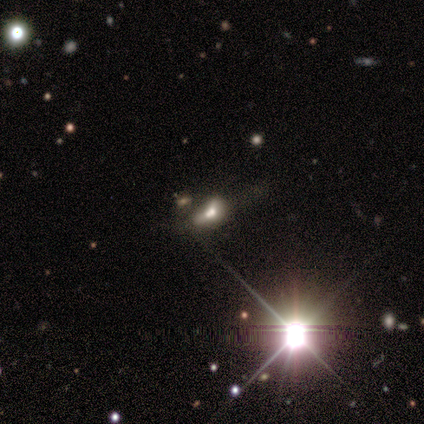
Volunteers were most divided on "merging": minor disturbance: 50%, major disturbance: 25%, merger: 25%, none: 0%. More confident: how rounded — in between (100%); smooth or featured — smooth (60%).